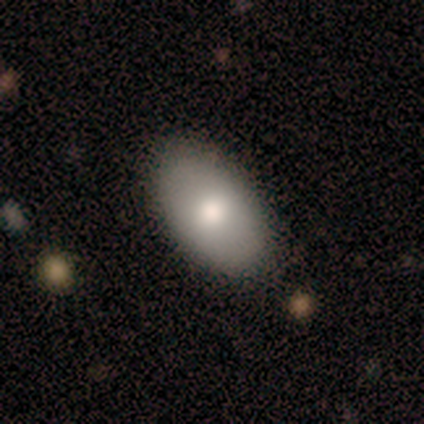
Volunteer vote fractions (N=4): Q: Smooth or featured?
A: smooth (75%); runner-up: featured or disk (25%)
Q: How rounded?
A: in between (67%); runner-up: round (33%)
Q: Merging?
A: none (100%)